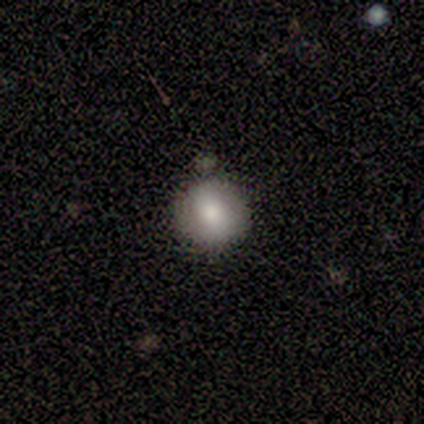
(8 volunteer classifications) Volunteers were most divided on "merging": none: 75%, minor disturbance: 25%, major disturbance: 0%, merger: 0%. More confident: smooth or featured — smooth (100%); how rounded — round (100%).